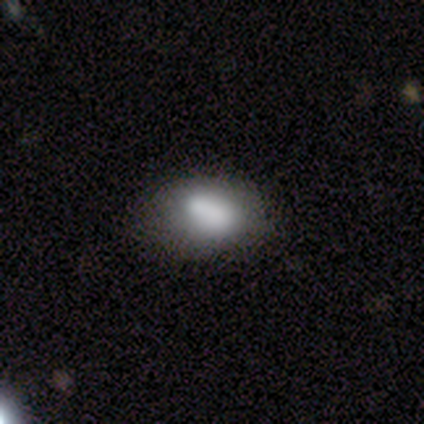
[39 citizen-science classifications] smooth_or_featured: smooth (p=0.79) [alt: featured or disk p=0.18]
how_rounded: in between (p=0.77) [alt: round p=0.23]
merging: none (p=0.55) [alt: minor disturbance p=0.29]